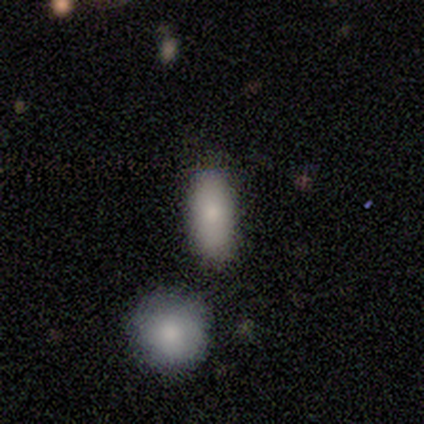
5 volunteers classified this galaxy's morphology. Volunteers were most divided on "merging" (2-way tie): none: 40%, merger: 40%, minor disturbance: 20%, major disturbance: 0%. More confident: how rounded — in between (100%); smooth or featured — smooth (80%).